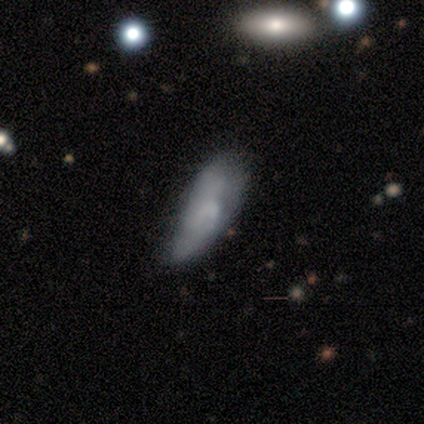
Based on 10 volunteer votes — Smooth or featured?
  - smooth: 70% *
  - featured or disk: 30%
  - star or artifact: 0%
How rounded?
  - in between: 71% *
  - cigar-shaped: 29%
  - round: 0%
Merging?
  - minor disturbance: 70% *
  - none: 30%
  - major disturbance: 0%
  - merger: 0%